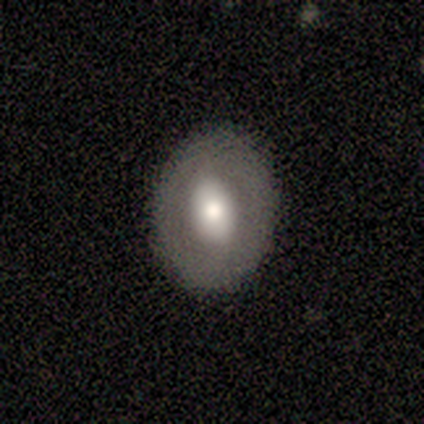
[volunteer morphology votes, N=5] A smooth galaxy with no disk features (60%) that is round (67%).

Vote fractions:
- Smooth or featured? smooth: 60% / featured or disk: 40% / star or artifact: 0%
- How rounded? round: 67% / in between: 33% / cigar-shaped: 0%
- Merging? none: 80% / minor disturbance: 20% / major disturbance: 0% / merger: 0%